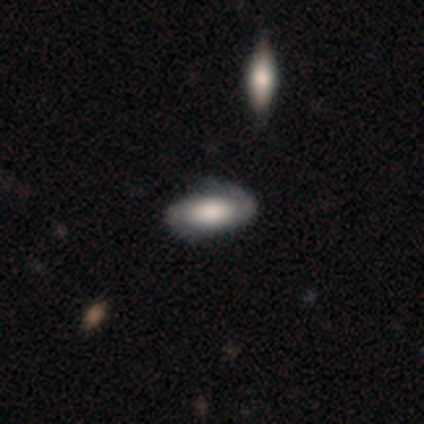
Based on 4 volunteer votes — A smooth galaxy with no disk features (75%) that is in between round and cigar-shaped (100%). Merging: none (100%).